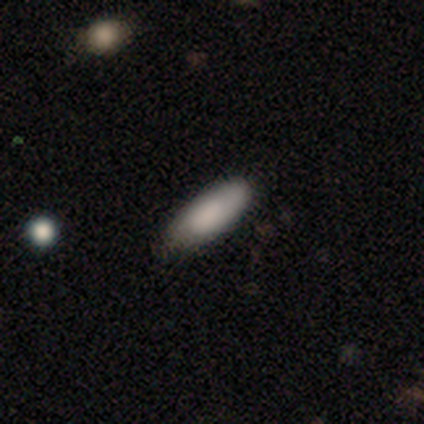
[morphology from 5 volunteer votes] Smooth or featured? 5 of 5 (100%) said smooth. How rounded? 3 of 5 (60%) said in between. Merging? 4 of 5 (80%) said none.